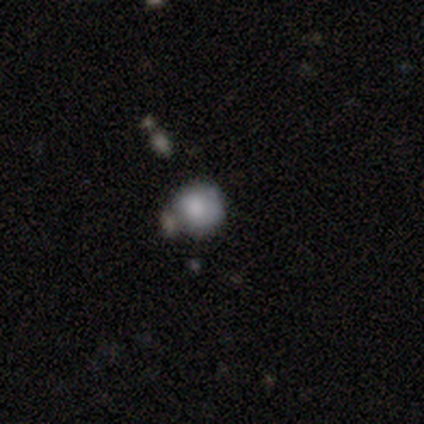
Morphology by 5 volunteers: Smooth or featured? 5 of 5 (100%) said smooth. How rounded? 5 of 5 (100%) said round. Merging? 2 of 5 (40%, tied with merger) said minor disturbance.